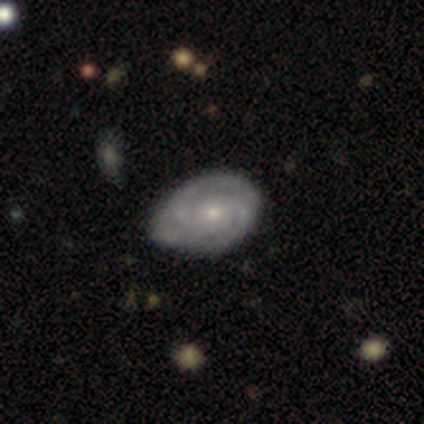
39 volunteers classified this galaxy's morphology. smooth-or-featured: featured or disk: 79% | smooth: 10% | star or artifact: 10%
  disk-edge-on: no: 97% | yes: 3%
    bar: no: 63% | weak: 33% | strong: 3%
    has-spiral-arms: yes: 90% | no: 10%
      spiral-winding: tight: 63% | medium: 30% | loose: 7%
      spiral-arm-count: 2: 48% | 3: 33% | can't tell: 15% | more than 4: 4% | 1: 0% | 4: 0%
    bulge-size: moderate: 47% (tied) | small: 47% (tied) | large: 3% | none: 3% | dominant: 0%
  merging: none: 46% (tied) | minor disturbance: 46% (tied) | major disturbance: 6% | merger: 3%